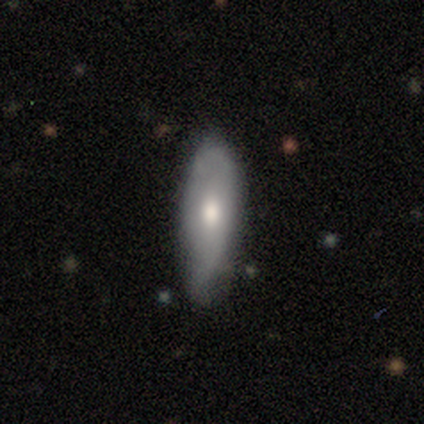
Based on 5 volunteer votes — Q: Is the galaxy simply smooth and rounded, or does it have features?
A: smooth — 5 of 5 (100%).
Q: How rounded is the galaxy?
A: in between — 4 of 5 (80%).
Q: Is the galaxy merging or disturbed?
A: none — 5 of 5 (100%).